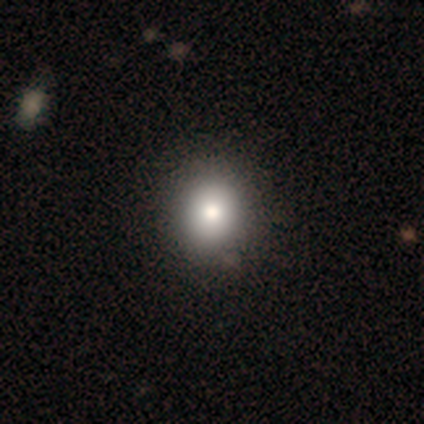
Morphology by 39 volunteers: Smooth or featured?
  - smooth: 90% *
  - featured or disk: 8%
  - star or artifact: 3%
How rounded?
  - round: 69% *
  - in between: 31%
  - cigar-shaped: 0%
Merging?
  - none: 55% *
  - major disturbance: 5%
  - minor disturbance: 3%
  - merger: 0%